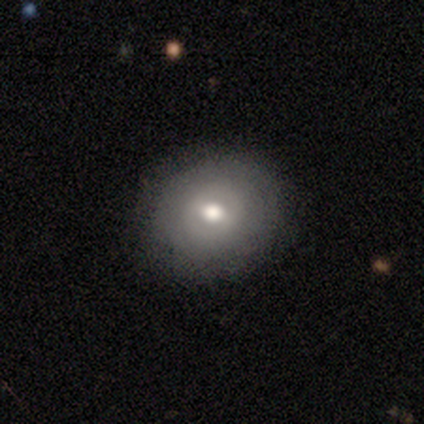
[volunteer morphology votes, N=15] Smooth or featured? 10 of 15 (67%) said smooth. How rounded? 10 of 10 (100%) said round. Merging? 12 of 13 (92%) said none.